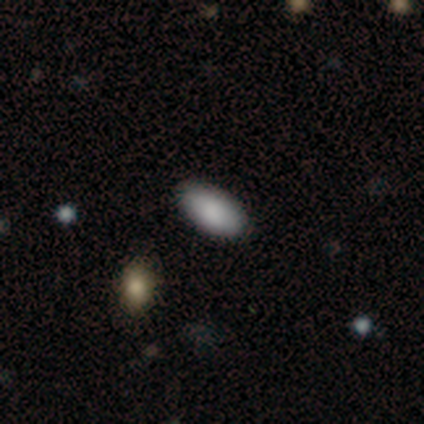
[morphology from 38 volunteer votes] Smooth or featured? 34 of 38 (89%) said smooth. How rounded? 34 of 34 (100%) said in between. Merging? 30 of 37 (81%) said none.